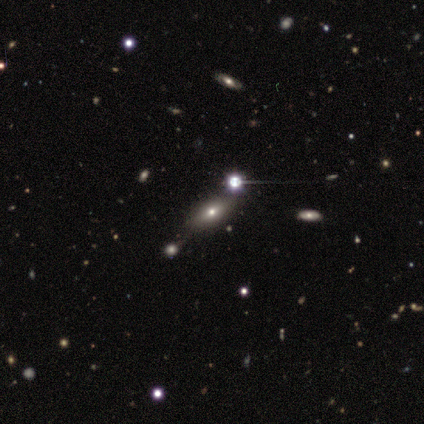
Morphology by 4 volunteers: Overall: smooth (75%). How rounded: in between (67%; cigar-shaped 33%). Merging: none (100%).